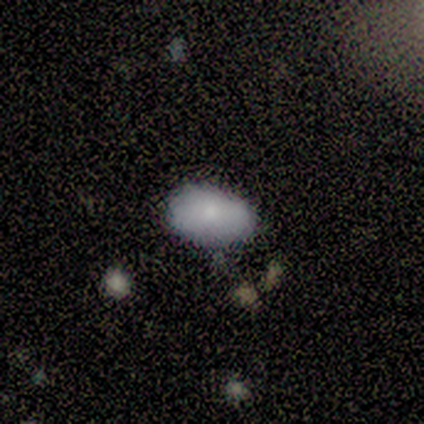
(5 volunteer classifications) Smooth or featured? 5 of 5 (100%) said smooth. How rounded? 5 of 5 (100%) said in between. Merging? 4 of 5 (80%) said none.